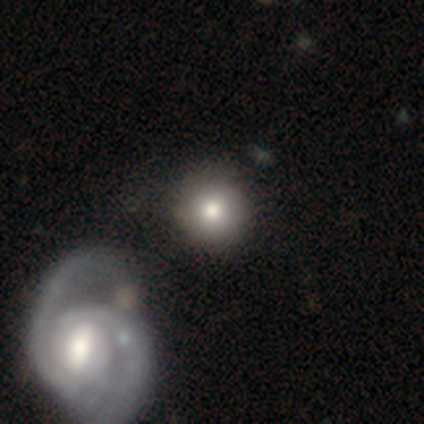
A smooth galaxy with no disk features (60%) that is round (100%). Merging: none (60%).